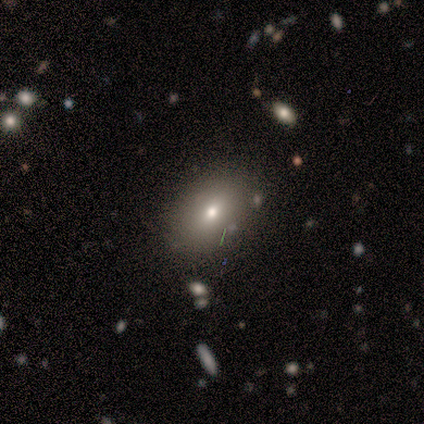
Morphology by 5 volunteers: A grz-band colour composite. It shows a smooth galaxy with no disk features (60%) that is in between round and cigar-shaped (67%). Merging: none (100%).